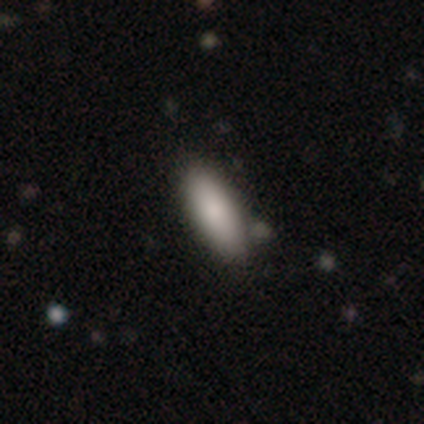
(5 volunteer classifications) Smooth or featured? smooth (100%)
How rounded? in between (100%)
Merging? none (100%)